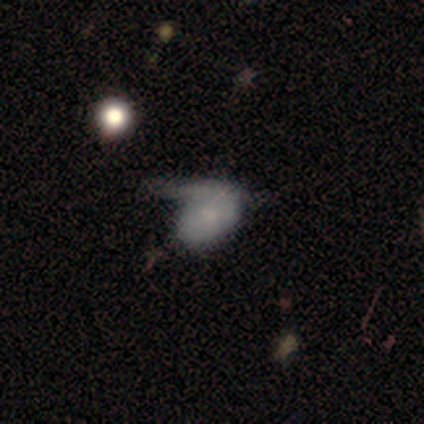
smooth-or-featured: smooth: 60% | featured or disk: 40% | star or artifact: 0%
  how-rounded: in between: 100% | round: 0% | cigar-shaped: 0%
  merging: major disturbance: 60% | merger: 40% | none: 0% | minor disturbance: 0%